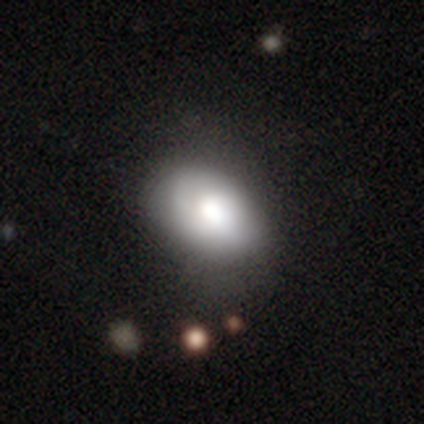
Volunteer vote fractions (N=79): Morphology: type=smooth (73%); roundness=in between (81%); merging=none (34%).